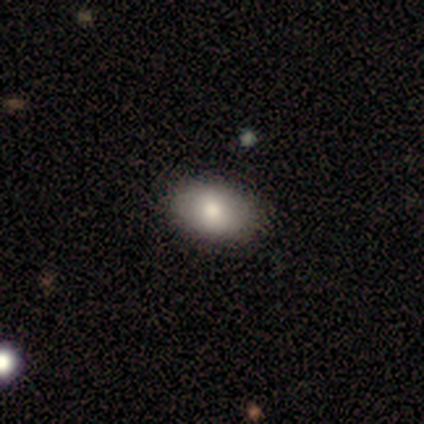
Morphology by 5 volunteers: Smooth or featured: smooth — 100%
How rounded: in between — 80% (round — 20%)
Merging: none — 60% (minor disturbance — 40%)